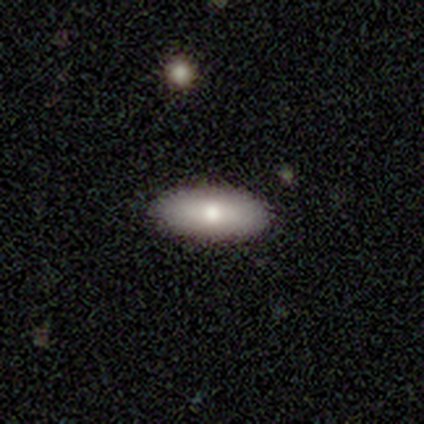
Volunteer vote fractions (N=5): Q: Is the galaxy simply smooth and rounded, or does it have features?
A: smooth — 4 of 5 (80%).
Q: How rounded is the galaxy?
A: in between — 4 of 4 (100%).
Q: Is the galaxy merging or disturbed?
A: none — 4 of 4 (100%).